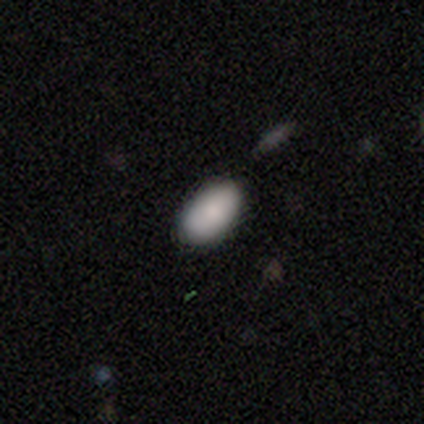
Consensus on every question: smooth or featured — smooth (100%); how rounded — in between (100%); merging — none (100%).